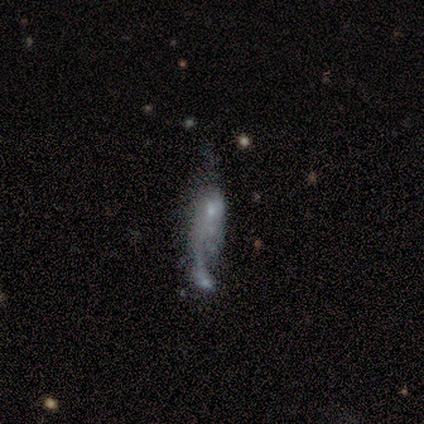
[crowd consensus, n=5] Smooth or featured?
  - featured or disk: 80% *
  - smooth: 20%
  - star or artifact: 0%
Edge-on disk?
  - no: 100% *
  - yes: 0%
Bar?
  - weak: 50% * (tied)
  - no: 50% * (tied)
  - strong: 0%
Spiral arms?
  - yes: 50% * (tied)
  - no: 50% * (tied)
Spiral winding?
  - tight: 50% * (tied)
  - loose: 50% * (tied)
  - medium: 0%
Spiral arm count?
  - 1: 50% * (tied)
  - 2: 50% * (tied)
  - 3: 0%
  - 4: 0%
  - more than 4: 0%
  - can't tell: 0%
Bulge size?
  - none: 75% *
  - small: 25%
  - dominant: 0%
  - large: 0%
  - moderate: 0%
Merging?
  - none: 60% *
  - minor disturbance: 20%
  - merger: 20%
  - major disturbance: 0%